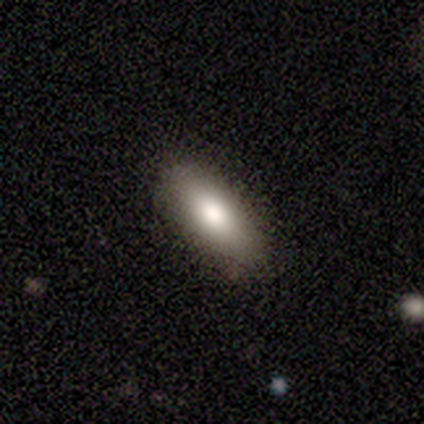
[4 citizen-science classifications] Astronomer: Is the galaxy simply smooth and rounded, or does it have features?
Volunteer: smooth — 75%.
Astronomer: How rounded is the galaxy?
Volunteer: in between — 100%.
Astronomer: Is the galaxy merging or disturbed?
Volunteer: none — 100%.